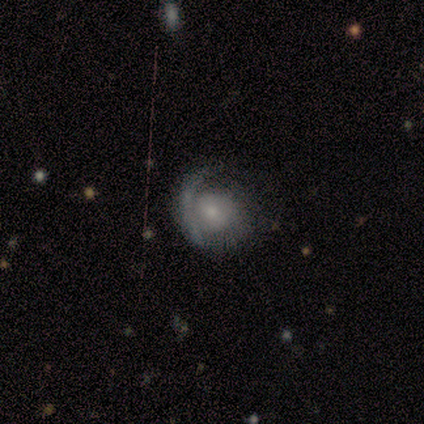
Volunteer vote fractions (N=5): A featured or disk galaxy (80%) with no bar (100%), no spiral arms (67%) and a small central bulge (67%). Merging: none (60%).